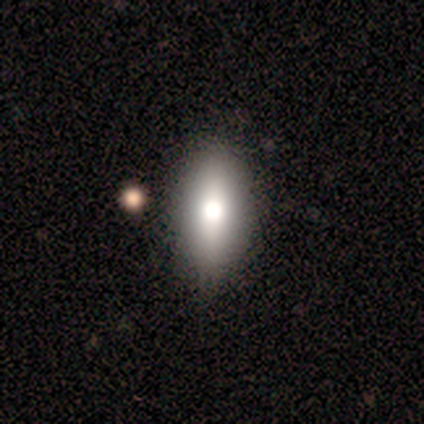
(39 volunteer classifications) smooth-or-featured: smooth: 62% | featured or disk: 26% | star or artifact: 13%
  how-rounded: in between: 88% | cigar-shaped: 12% | round: 0%
  merging: none: 44% | minor disturbance: 6% | major disturbance: 6% | merger: 3%